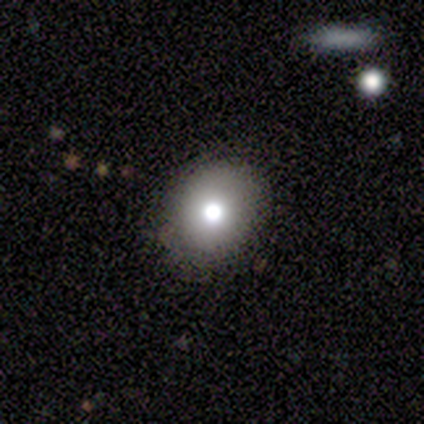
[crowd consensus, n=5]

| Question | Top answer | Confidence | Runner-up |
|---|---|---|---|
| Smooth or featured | smooth | 40% | tied: featured or disk (40%) |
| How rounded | round | 100% | — |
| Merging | none | 100% | — |